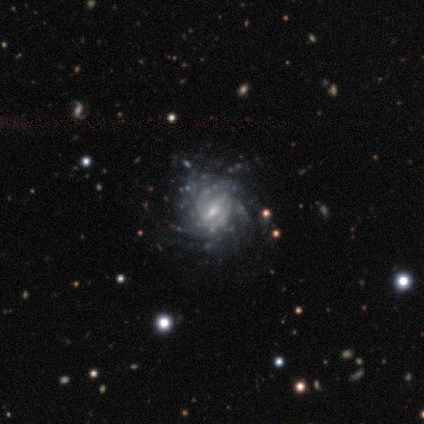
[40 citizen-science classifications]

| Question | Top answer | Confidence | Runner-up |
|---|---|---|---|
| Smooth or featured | featured or disk | 90% | star or artifact (8%) |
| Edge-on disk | no | 100% | — |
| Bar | weak | 67% | no (19%) |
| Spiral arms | yes | 94% | no (6%) |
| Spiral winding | tight | 71% | medium (18%) |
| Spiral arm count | can't tell | 38% | more than 4 (32%) |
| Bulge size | moderate | 47% | tied: small (47%) |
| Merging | none | 78% | minor disturbance (16%) |